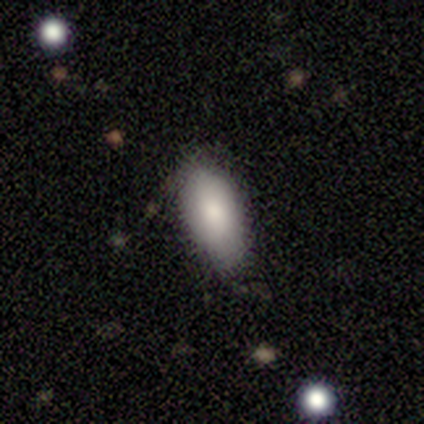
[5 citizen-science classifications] smooth_or_featured: smooth (p=1.00)
how_rounded: in between (p=0.80) [alt: cigar-shaped p=0.20]
merging: none (p=0.80) [alt: minor disturbance p=0.20]